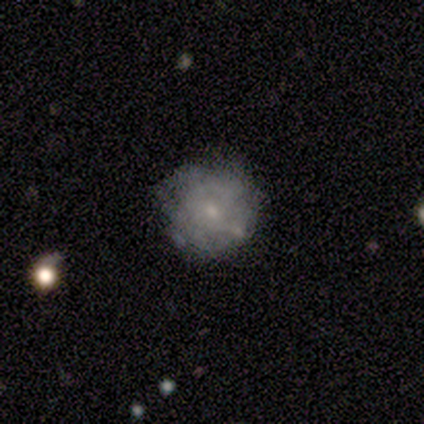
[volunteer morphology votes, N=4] A featured or disk galaxy (75%) with no bar (67%), no spiral arms (100%) and a small central bulge (100%). Merging: none (100%).